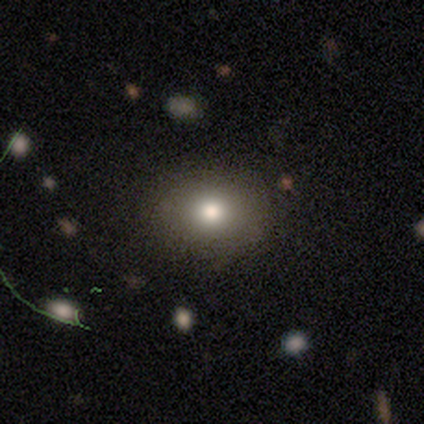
This appears to be a smooth galaxy with no disk features (75%) that is in between round and cigar-shaped (67%). Merging: none (100%).